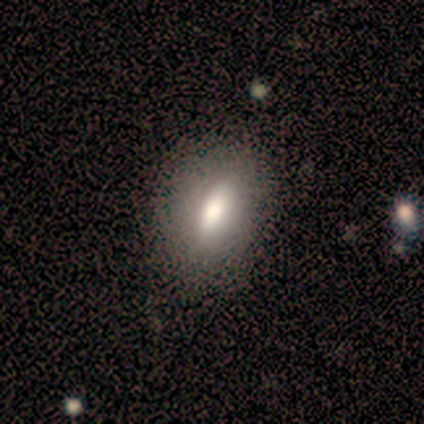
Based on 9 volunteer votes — smooth 78%, featured or disk 11%, star or artifact 11%. Down the decision tree: how rounded — in between (86%); merging — none (100%).